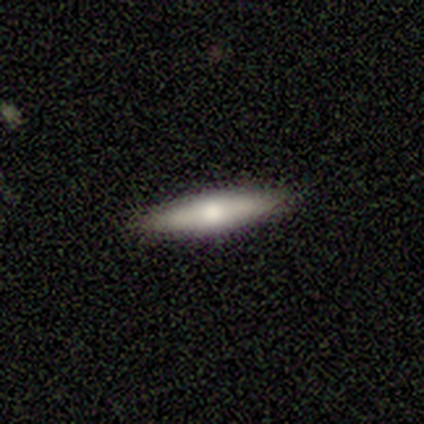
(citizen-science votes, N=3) smooth 100%, featured or disk 0%, star or artifact 0%. Down the decision tree: how rounded — cigar-shaped (67%); merging — none (100%).